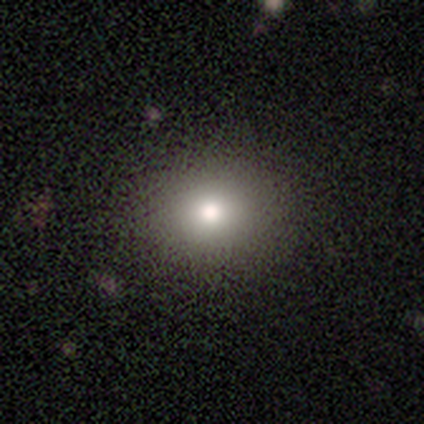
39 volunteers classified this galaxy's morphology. A smooth galaxy with no disk features (74%) that is round (69%).

Vote fractions:
- Smooth or featured? smooth: 74% / star or artifact: 15% / featured or disk: 10%
- How rounded? round: 69% / in between: 28% / cigar-shaped: 3%
- Merging? none: 88% / minor disturbance: 6% / major disturbance: 3% / merger: 3%